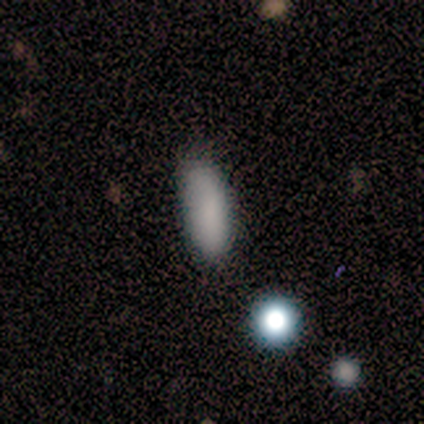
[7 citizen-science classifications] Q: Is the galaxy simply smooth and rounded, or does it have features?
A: smooth — 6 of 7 (86%).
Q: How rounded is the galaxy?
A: in between — 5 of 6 (83%).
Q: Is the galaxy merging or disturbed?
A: none — 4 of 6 (67%).